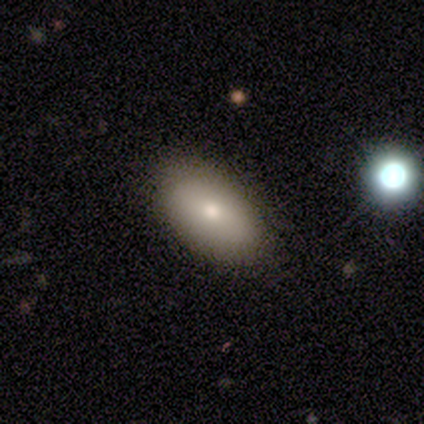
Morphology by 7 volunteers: Volunteers were most divided on "how rounded": in between: 86%, round: 14%, cigar-shaped: 0%. More confident: smooth or featured — smooth (100%); merging — none (100%).